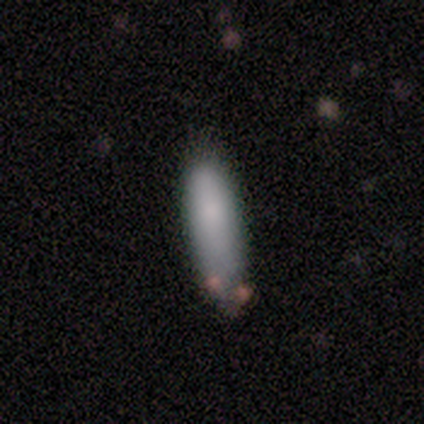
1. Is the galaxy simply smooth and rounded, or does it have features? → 82% smooth, 11% featured or disk, 8% star or artifact.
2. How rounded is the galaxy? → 55% cigar-shaped, 45% in between, 0% round.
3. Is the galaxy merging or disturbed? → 54% none, 34% minor disturbance, 9% merger, 3% major disturbance.